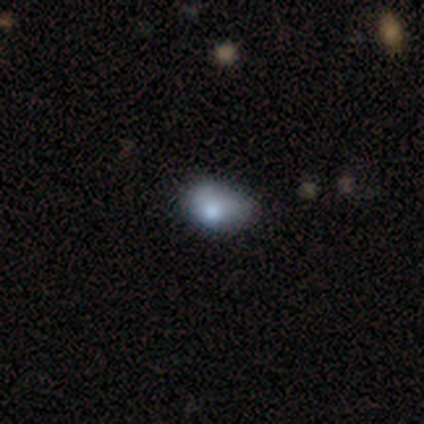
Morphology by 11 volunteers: smooth-or-featured: smooth: 55% | featured or disk: 45% | star or artifact: 0%
  how-rounded: in between: 67% | round: 33% | cigar-shaped: 0%
  merging: none: 64% | minor disturbance: 18% | major disturbance: 18% | merger: 0%